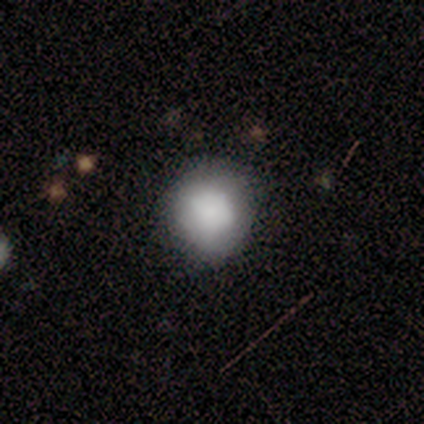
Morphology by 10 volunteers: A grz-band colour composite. It shows a smooth galaxy with no disk features (70%) that is round (86%). Merging: none (75%).